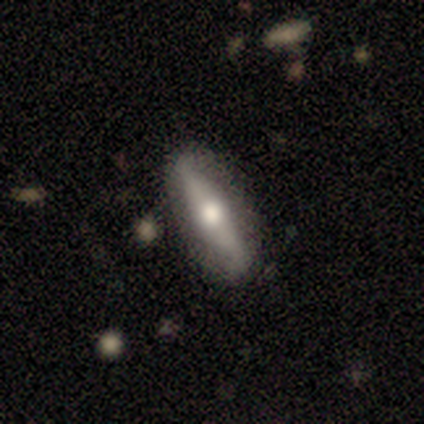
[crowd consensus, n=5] This is clearly a featured or disk galaxy (100%). It is clearly viewed edge-on (80%). Edge-on bulge: clearly rounded (100%). Merging: clearly none (100%).